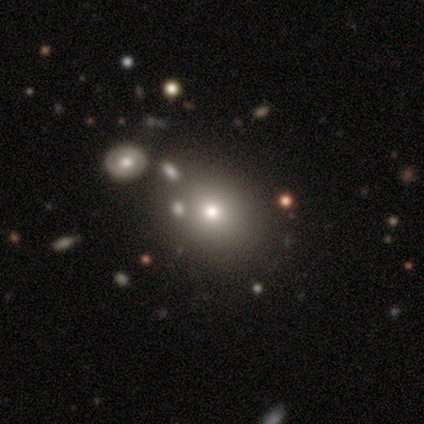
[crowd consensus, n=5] Overall: smooth (80%). How rounded: round (75%). Merging: none (100%).